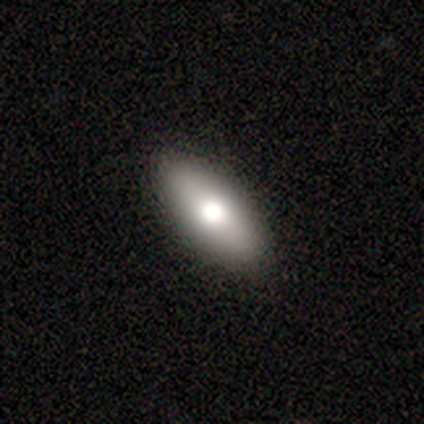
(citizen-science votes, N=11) Smooth or featured? 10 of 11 (91%) said smooth. How rounded? 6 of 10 (60%) said in between. Merging? 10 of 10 (100%) said none.